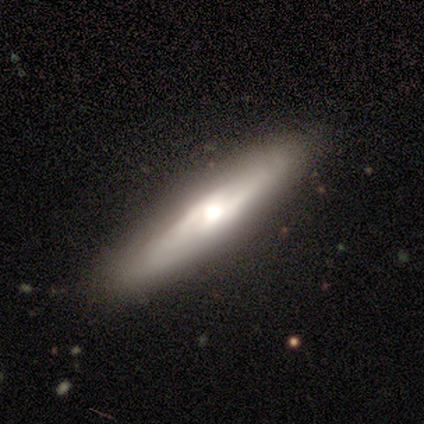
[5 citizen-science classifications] A featured or disk galaxy (80%) viewed edge-on (75%) with a rounded central bulge (100%).

Vote fractions:
- Smooth or featured? featured or disk: 80% / smooth: 20% / star or artifact: 0%
- Edge-on disk? yes: 75% / no: 25%
- Edge-on bulge? rounded: 100% / boxy: 0% / none: 0%
- Merging? none: 100% / minor disturbance: 0% / major disturbance: 0% / merger: 0%